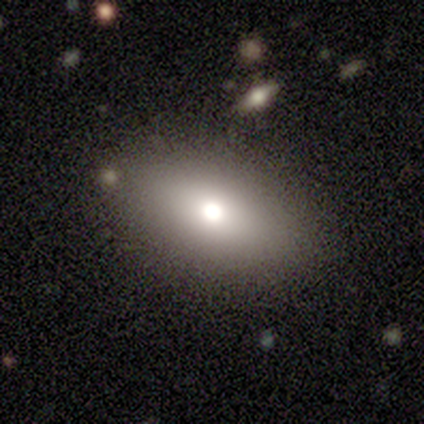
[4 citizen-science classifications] Volunteers were most divided on "smooth or featured": smooth: 75%, featured or disk: 25%, star or artifact: 0%. More confident: how rounded — in between (100%); merging — none (75%).